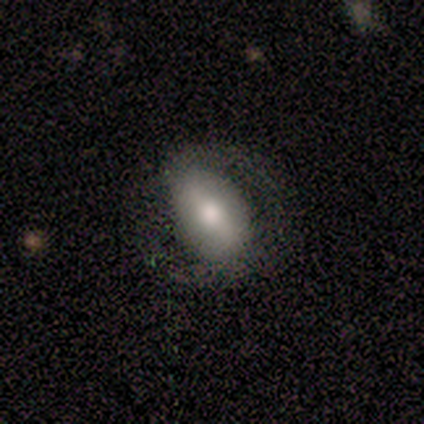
Smooth or featured? smooth (80%)
How rounded? in between (100%)
Merging? none (60%)